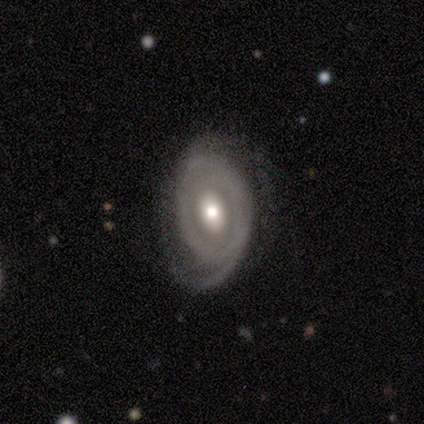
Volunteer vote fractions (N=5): Volunteers were most divided on "spiral winding" (2-way tie): tight: 50%, loose: 50%, medium: 0%. More confident: edge-on disk — no (100%); spiral arms — yes (100%); bulge size — moderate (100%); smooth or featured — featured or disk (80%); bar — no (75%); merging — none (75%); spiral arm count — 1 (50%).